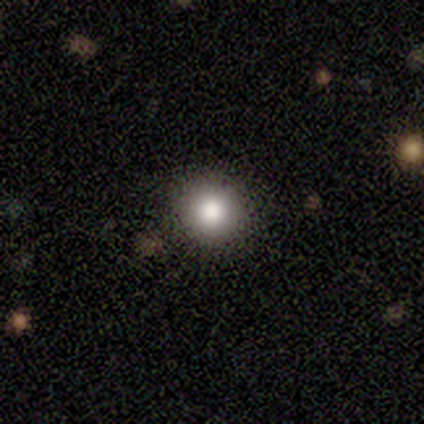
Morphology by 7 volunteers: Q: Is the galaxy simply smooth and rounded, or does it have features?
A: smooth — 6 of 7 (86%).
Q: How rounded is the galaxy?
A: round — 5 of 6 (83%).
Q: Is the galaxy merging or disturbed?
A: none — 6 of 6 (100%).